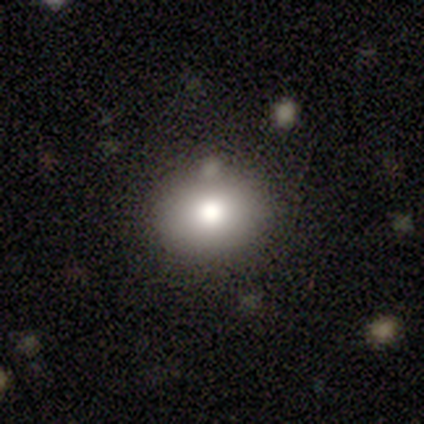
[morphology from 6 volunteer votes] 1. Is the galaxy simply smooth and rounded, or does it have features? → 83% smooth, 17% star or artifact, 0% featured or disk.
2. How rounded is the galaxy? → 60% round, 40% in between, 0% cigar-shaped.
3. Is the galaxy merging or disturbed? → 80% none, 20% minor disturbance, 0% major disturbance, 0% merger.